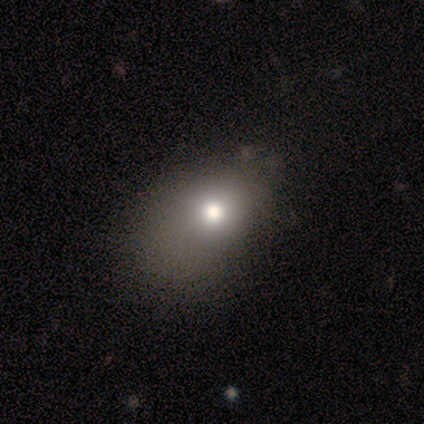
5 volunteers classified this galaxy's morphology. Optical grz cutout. It shows a smooth galaxy with no disk features (80%) that is in between round and cigar-shaped (75%). Merging: minor disturbance (60%).